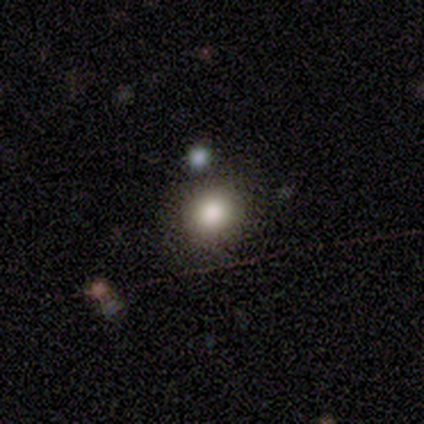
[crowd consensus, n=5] smooth_or_featured: smooth (p=0.40) [tied with: star or artifact p=0.40]
how_rounded: round (p=0.50) [tied with: in between p=0.50]
merging: none (p=0.67) [alt: minor disturbance p=0.33]